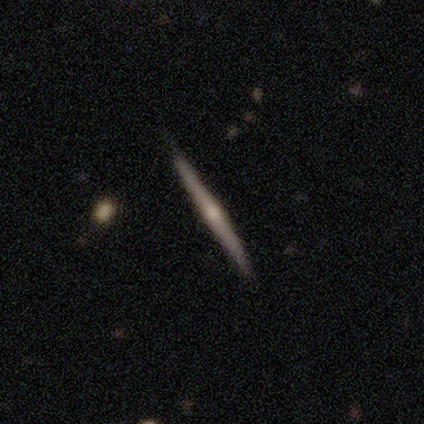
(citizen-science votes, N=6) This appears to be a featured or disk galaxy (50%) viewed edge-on (100%) with a rounded central bulge (100%). Merging: none (80%).